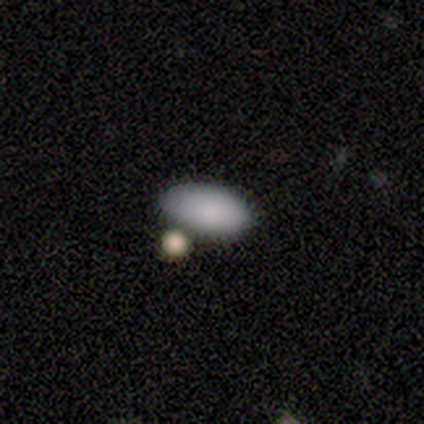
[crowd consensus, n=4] smooth_or_featured: smooth (p=0.75) [alt: star or artifact p=0.25]
how_rounded: in between (p=1.00)
merging: merger (p=0.67) [alt: minor disturbance p=0.33]